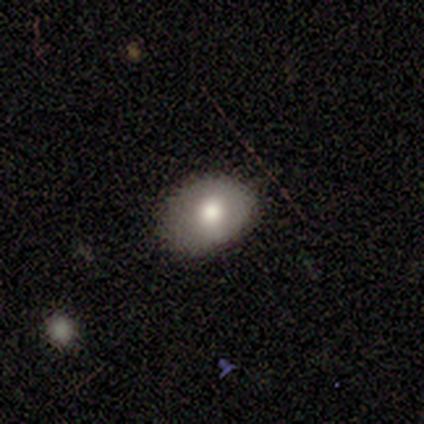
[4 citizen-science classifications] Q: Smooth or featured?
A: smooth (75%); runner-up: featured or disk (25%)
Q: How rounded?
A: in between (67%); runner-up: round (33%)
Q: Merging?
A: none (75%); runner-up: minor disturbance (25%)